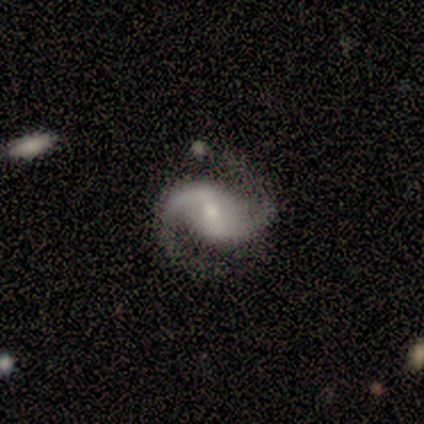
Volunteers were most divided on "bulge size" (3-way tie): moderate: 33%, small: 33%, none: 33%, dominant: 0%, large: 0%; "merging" (2-way tie): none: 50%, minor disturbance: 50%, major disturbance: 0%, merger: 0%. More confident: smooth or featured — featured or disk (100%); spiral arms — yes (100%); spiral arm count — 2 (100%); edge-on disk — no (75%); bar — strong (67%); spiral winding — loose (67%).